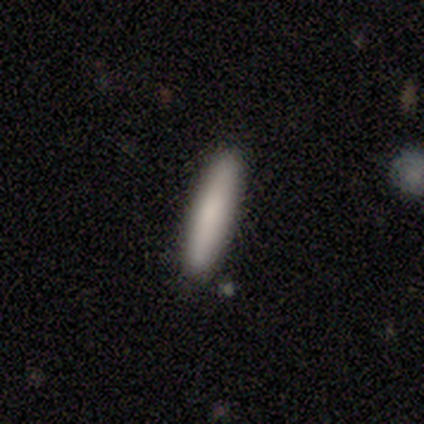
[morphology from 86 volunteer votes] Smooth or featured? 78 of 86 (91%) said smooth. How rounded? 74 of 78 (95%) said cigar-shaped. Merging? 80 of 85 (94%) said none.